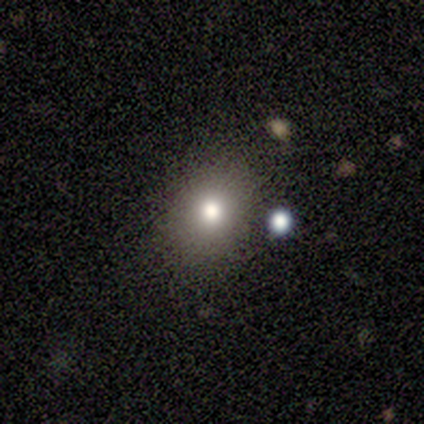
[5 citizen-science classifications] This is likely a smooth galaxy (60%). How rounded: clearly in between (100%). Merging: possibly none (50%).